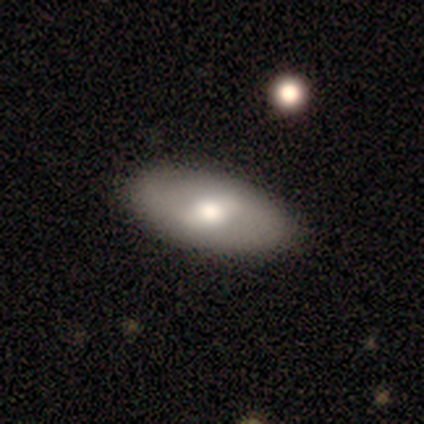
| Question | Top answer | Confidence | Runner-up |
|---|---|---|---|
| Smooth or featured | smooth | 75% | star or artifact (25%) |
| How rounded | in between | 67% | cigar-shaped (33%) |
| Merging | none | 100% | — |